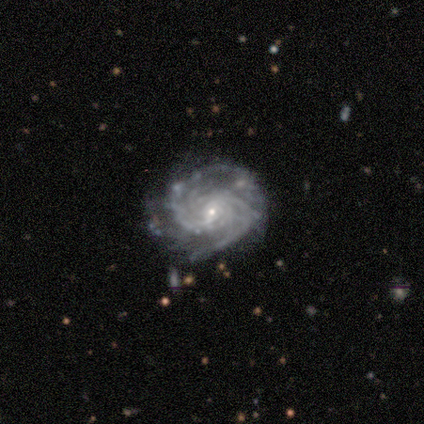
Smooth or featured?
  - featured or disk: 100% *
  - smooth: 0%
  - star or artifact: 0%
Edge-on disk?
  - no: 100% *
  - yes: 0%
Bar?
  - weak: 80% *
  - no: 20%
  - strong: 0%
Spiral arms?
  - yes: 100% *
  - no: 0%
Spiral winding?
  - medium: 80% *
  - tight: 20%
  - loose: 0%
Spiral arm count?
  - 2: 60% *
  - 3: 20%
  - can't tell: 20%
  - 1: 0%
  - 4: 0%
  - more than 4: 0%
Bulge size?
  - small: 80% *
  - moderate: 20%
  - dominant: 0%
  - large: 0%
  - none: 0%
Merging?
  - none: 80% *
  - minor disturbance: 20%
  - major disturbance: 0%
  - merger: 0%